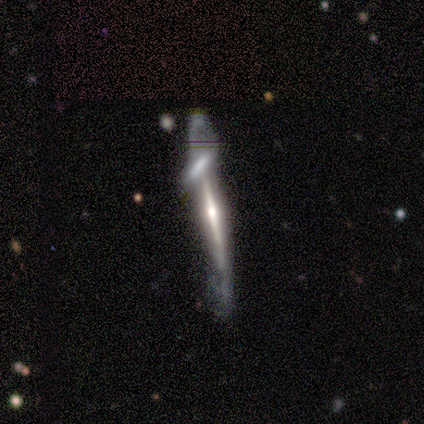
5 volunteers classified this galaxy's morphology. Smooth or featured? 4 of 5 (80%) said featured or disk. Edge-on disk? 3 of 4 (75%) said yes. Edge-on bulge? 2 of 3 (67%) said rounded. Merging? 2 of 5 (40%, tied with merger) said none.